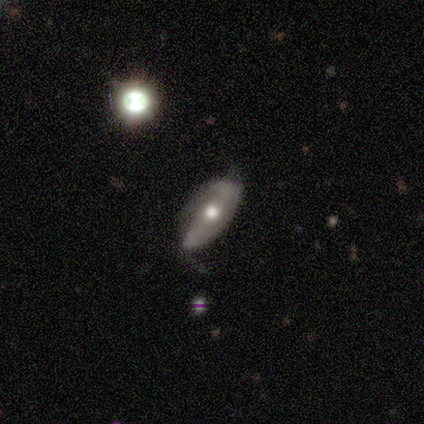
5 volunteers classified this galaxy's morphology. A featured or disk galaxy (80%) with a strong bar (50%, tied with no), no spiral arms (75%) and a moderate central bulge (75%).

Vote fractions:
- Smooth or featured? featured or disk: 80% / smooth: 20% / star or artifact: 0%
- Edge-on disk? no: 100% / yes: 0%
- Bar? strong: 50% (tied) / no: 50% (tied) / weak: 0%
- Spiral arms? no: 75% / yes: 25%
- Bulge size? moderate: 75% / none: 25% / dominant: 0% / large: 0% / small: 0%
- Merging? minor disturbance: 60% / none: 40% / major disturbance: 0% / merger: 0%